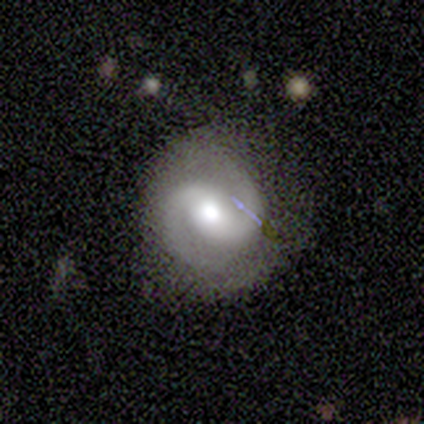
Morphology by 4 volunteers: Overall: featured or disk (100%). Edge-on disk: no (100%). Bar: weak (100%). Spiral arms: yes (100%). Spiral arm count: 2 (100%). Spiral winding: medium (75%). Bulge size: moderate (100%). Merging: none (75%).